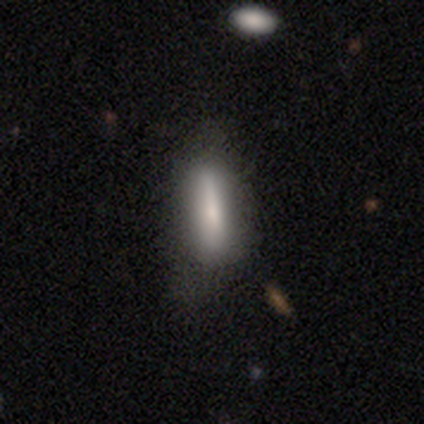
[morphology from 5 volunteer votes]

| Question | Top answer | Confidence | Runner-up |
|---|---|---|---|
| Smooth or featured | smooth | 60% | featured or disk (20%) |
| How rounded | cigar-shaped | 67% | in between (33%) |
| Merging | none | 50% | minor disturbance (25%) |